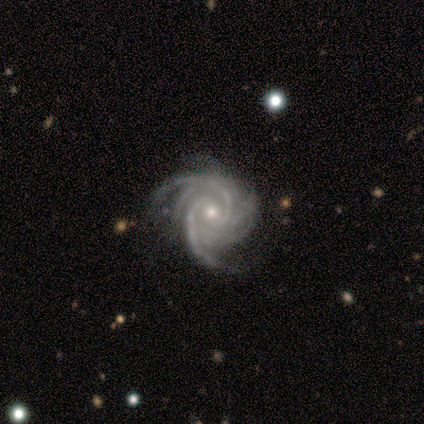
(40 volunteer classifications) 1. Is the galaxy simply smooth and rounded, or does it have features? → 100% featured or disk, 0% smooth, 0% star or artifact.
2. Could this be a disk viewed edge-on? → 100% no, 0% yes.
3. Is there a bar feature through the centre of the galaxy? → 65% no, 25% weak, 10% strong.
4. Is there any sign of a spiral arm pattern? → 100% yes, 0% no.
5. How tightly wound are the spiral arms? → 68% tight, 30% medium, 2% loose.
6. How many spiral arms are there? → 50% more than 4, 15% 3, 12% 2, 12% can't tell, 10% 4, 0% 1.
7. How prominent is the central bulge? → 52% moderate, 45% small, 2% large, 0% dominant, 0% none.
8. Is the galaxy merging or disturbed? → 60% none, 10% minor disturbance, 2% major disturbance, 2% merger.